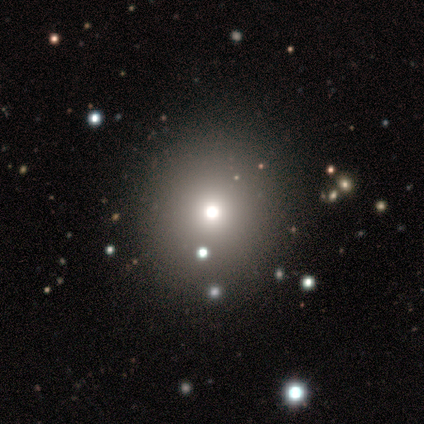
Morphology: type=smooth (61%); roundness=round (87%); merging=none (97%).